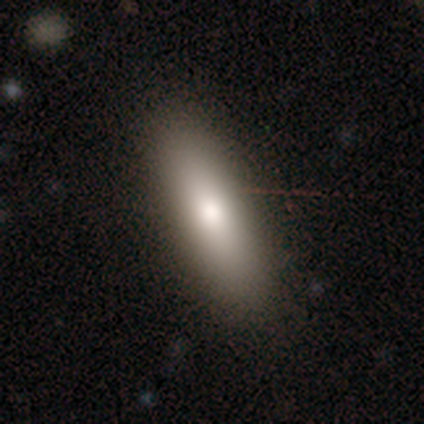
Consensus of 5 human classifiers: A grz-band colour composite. It shows a smooth galaxy with no disk features (60%) that is cigar-shaped (67%). Merging: none (80%).